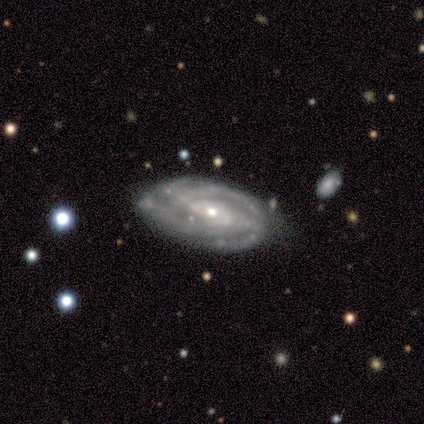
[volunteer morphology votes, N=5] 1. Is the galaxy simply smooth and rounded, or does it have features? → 100% featured or disk, 0% smooth, 0% star or artifact.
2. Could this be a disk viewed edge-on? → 100% no, 0% yes.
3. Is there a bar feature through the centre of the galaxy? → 40% weak (tied), 40% no (tied), 20% strong.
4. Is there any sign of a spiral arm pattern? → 100% yes, 0% no.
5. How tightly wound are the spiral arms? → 60% medium, 20% tight, 20% loose.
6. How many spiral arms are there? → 40% 4 (tied), 40% can't tell (tied), 20% 2, 0% 1, 0% 3, 0% more than 4.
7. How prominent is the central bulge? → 80% small, 20% moderate, 0% dominant, 0% large, 0% none.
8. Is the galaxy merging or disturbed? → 80% none, 20% minor disturbance, 0% major disturbance, 0% merger.